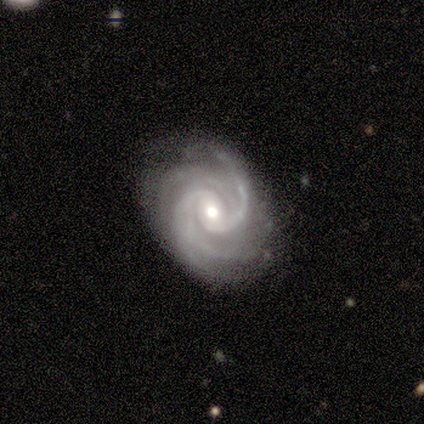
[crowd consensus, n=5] Smooth or featured? featured or disk (100%)
Edge-on disk? no (100%)
Bar? no (100%)
Spiral arms? yes (100%)
Spiral winding? tight (80%)
Spiral arm count? 4 (40%)
Bulge size? moderate (60%)
Merging? none (60%)